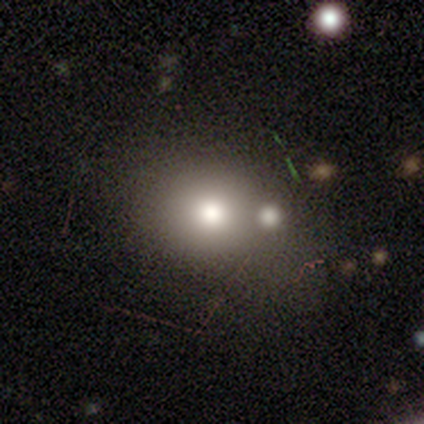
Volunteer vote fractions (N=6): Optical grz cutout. It shows a smooth galaxy with no disk features (100%) that is in between round and cigar-shaped (67%). Merging: minor disturbance (50%).